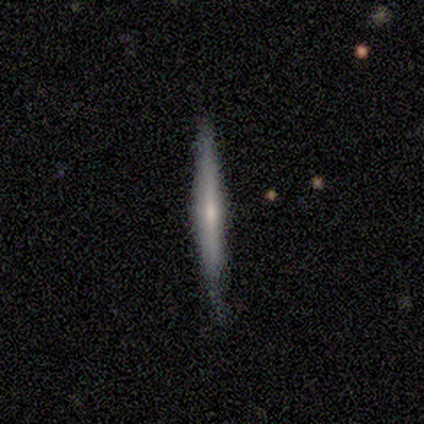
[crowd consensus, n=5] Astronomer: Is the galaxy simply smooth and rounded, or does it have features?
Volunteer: smooth — 60% (runner-up: featured or disk, 40%).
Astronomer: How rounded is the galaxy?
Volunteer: cigar-shaped — 100%.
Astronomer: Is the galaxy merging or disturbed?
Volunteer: none — 80%.